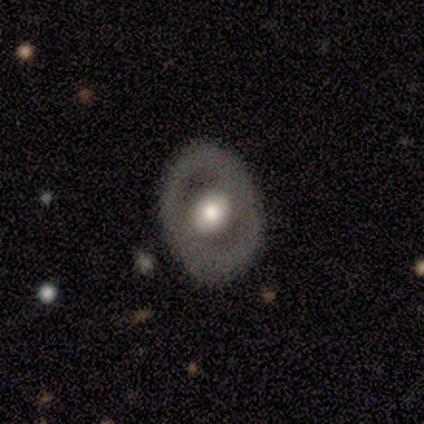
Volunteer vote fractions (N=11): Smooth or featured?
  - featured or disk: 55% *
  - smooth: 45%
  - star or artifact: 0%
Edge-on disk?
  - no: 100% *
  - yes: 0%
Bar?
  - no: 67% *
  - strong: 17%
  - weak: 17%
Spiral arms?
  - no: 83% *
  - yes: 17%
Bulge size?
  - moderate: 67% *
  - large: 33%
  - dominant: 0%
  - small: 0%
  - none: 0%
Merging?
  - none: 91% *
  - minor disturbance: 9%
  - major disturbance: 0%
  - merger: 0%